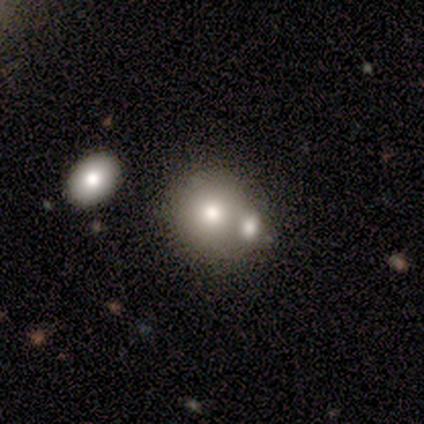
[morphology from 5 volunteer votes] Volunteers were most divided on "how rounded": round: 75%, in between: 25%, cigar-shaped: 0%. More confident: smooth or featured — smooth (80%); merging — merger (75%).